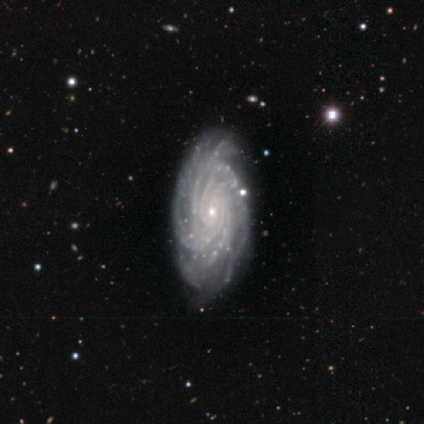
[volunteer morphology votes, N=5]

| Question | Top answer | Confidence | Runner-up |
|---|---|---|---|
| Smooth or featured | featured or disk | 80% | star or artifact (20%) |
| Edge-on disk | no | 100% | — |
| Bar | no | 50% | strong (25%) |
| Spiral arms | yes | 100% | — |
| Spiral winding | tight | 100% | — |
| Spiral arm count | more than 4 | 75% | 4 (25%) |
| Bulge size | small | 100% | — |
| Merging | none | 100% | — |